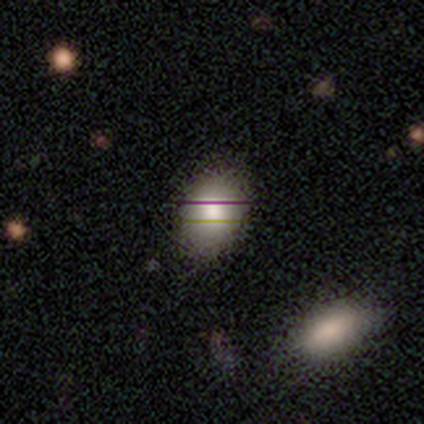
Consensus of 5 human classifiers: Smooth or featured? smooth (100%)
How rounded? in between (80%)
Merging? none (60%)